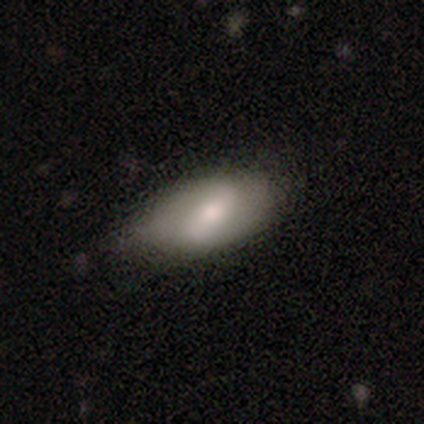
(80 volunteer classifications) smooth_or_featured: featured or disk (p=0.56) [alt: smooth p=0.40]
disk_edge_on: no (p=0.93) [alt: yes p=0.07]
bar: weak (p=0.57) [alt: strong p=0.31]
has_spiral_arms: yes (p=0.64) [alt: no p=0.36]
spiral_winding: medium (p=0.44) [alt: loose p=0.30]
spiral_arm_count: 2 (p=0.89) [alt: can't tell p=0.11]
bulge_size: moderate (p=0.74) [alt: large p=0.10]
merging: none (p=0.31) [alt: minor disturbance p=0.17]